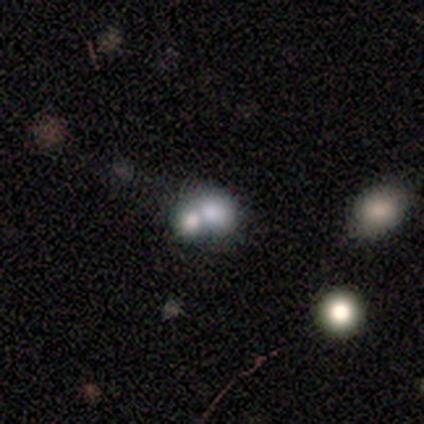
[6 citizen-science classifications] Smooth or featured?
  - smooth: 50% * (tied)
  - featured or disk: 50% * (tied)
  - star or artifact: 0%
How rounded?
  - in between: 67% *
  - round: 33%
  - cigar-shaped: 0%
Merging?
  - merger: 83% *
  - major disturbance: 17%
  - none: 0%
  - minor disturbance: 0%